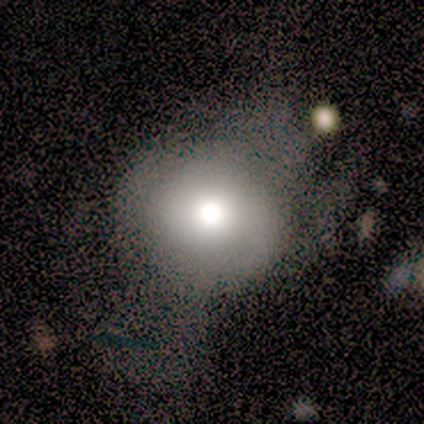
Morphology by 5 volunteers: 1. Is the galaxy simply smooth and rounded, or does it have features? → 80% smooth, 20% star or artifact, 0% featured or disk.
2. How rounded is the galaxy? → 75% round, 25% in between, 0% cigar-shaped.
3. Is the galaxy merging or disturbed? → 50% none (tied), 50% major disturbance (tied), 0% minor disturbance, 0% merger.